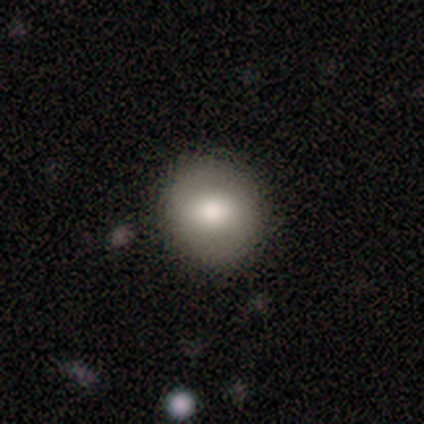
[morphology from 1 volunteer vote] Smooth or featured? smooth (100%)
How rounded? round (100%)
Merging? none (100%)